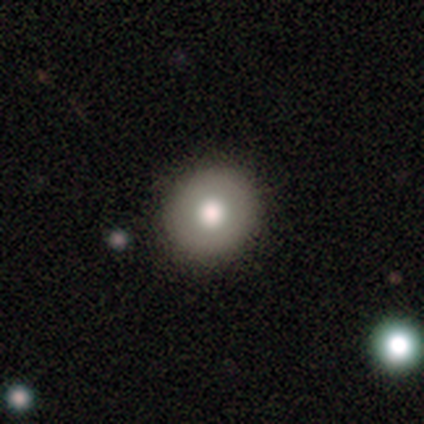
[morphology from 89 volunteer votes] type=smooth (66%); roundness=round (83%); merging=none (90%).